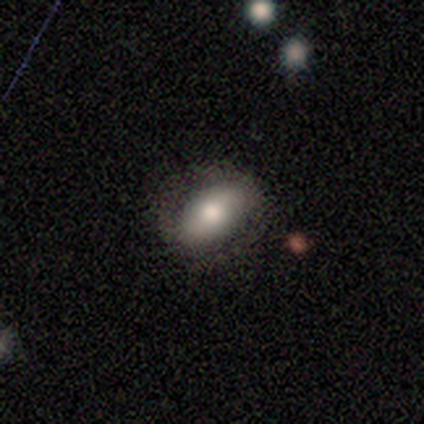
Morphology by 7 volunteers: smooth-or-featured: smooth: 43% | featured or disk: 29% | star or artifact: 29%
  how-rounded: in between: 100% | round: 0% | cigar-shaped: 0%
  merging: none: 80% | major disturbance: 20% | minor disturbance: 0% | merger: 0%